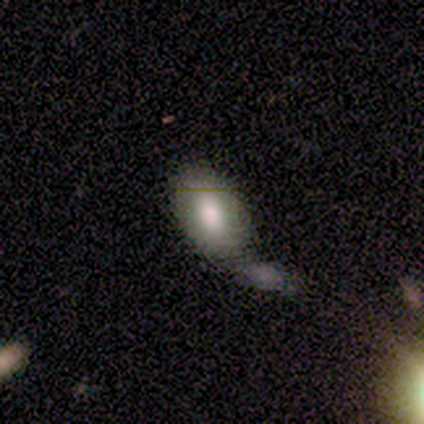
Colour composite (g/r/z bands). It shows a smooth galaxy with no disk features (100%) that is in between round and cigar-shaped (100%). Merging: minor disturbance (50%).